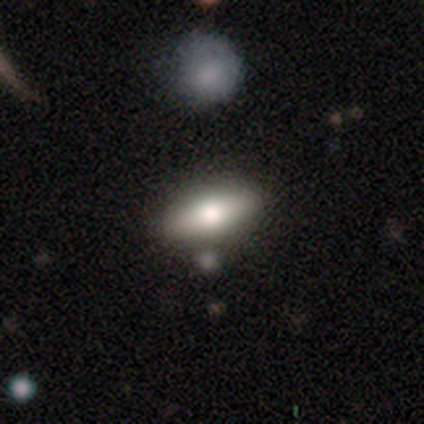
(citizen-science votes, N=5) Smooth or featured: smooth — 100%
How rounded: in between — 80% (cigar-shaped — 20%)
Merging: none — 80% (merger — 20%)